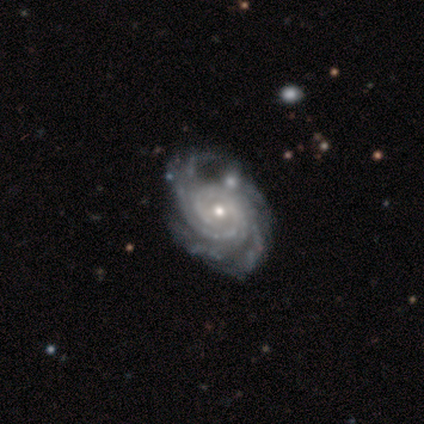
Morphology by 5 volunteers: This appears to be a featured or disk galaxy (100%) with no bar (80%), 4 (40%, tied with more than 4) tight (80%) spiral arms (100%) and a moderate central bulge (60%). Merging: none (60%).